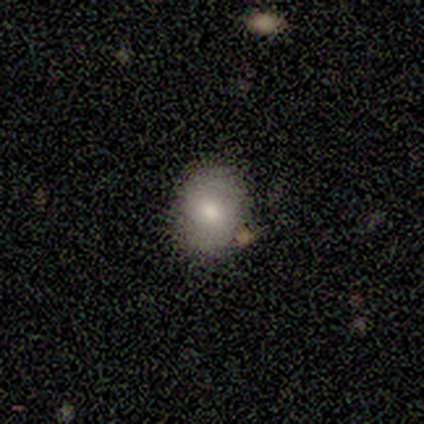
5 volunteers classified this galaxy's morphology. Smooth or featured? 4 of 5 (80%) said smooth. How rounded? 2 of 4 (50%, tied with in between) said round. Merging? 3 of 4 (75%) said none.